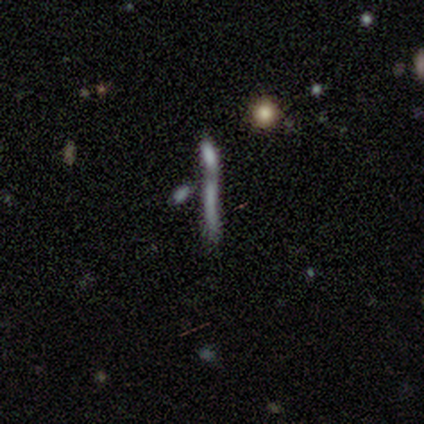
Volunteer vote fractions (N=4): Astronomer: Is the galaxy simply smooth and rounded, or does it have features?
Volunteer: smooth — 50%, tied with star or artifact at 50%.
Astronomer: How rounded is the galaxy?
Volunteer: cigar-shaped — 100%.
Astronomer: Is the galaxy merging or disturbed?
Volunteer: none — 100%.